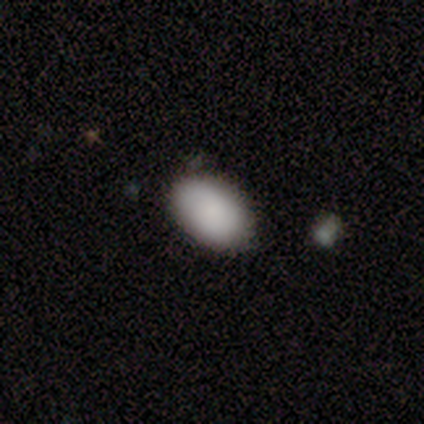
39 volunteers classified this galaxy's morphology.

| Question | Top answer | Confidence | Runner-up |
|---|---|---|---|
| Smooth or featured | smooth | 95% | star or artifact (5%) |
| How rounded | in between | 92% | round (8%) |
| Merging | none | 78% | minor disturbance (19%) |